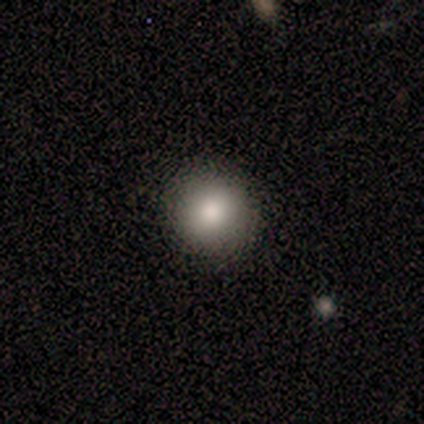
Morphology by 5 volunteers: Smooth or featured? smooth (60%)
How rounded? round (67%)
Merging? none (75%)